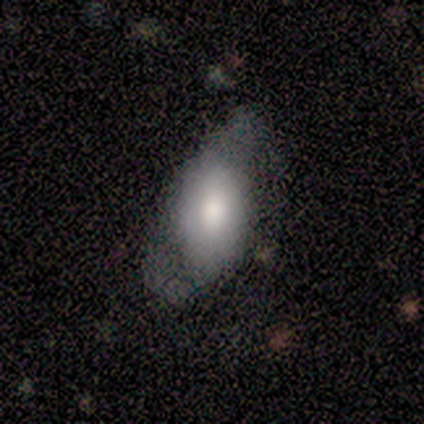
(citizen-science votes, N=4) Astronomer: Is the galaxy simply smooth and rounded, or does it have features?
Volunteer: featured or disk — 50%.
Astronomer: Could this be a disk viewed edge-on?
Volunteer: no — 100%.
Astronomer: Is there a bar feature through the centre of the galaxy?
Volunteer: strong — 50%, tied with no at 50%.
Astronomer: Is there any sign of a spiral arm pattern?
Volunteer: yes — 50%, tied with no at 50%.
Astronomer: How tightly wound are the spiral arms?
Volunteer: loose — 100%.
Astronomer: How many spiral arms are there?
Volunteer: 2 — 100%.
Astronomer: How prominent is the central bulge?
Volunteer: dominant — 50%, tied with moderate at 50%.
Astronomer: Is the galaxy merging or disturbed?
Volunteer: none — 67%.